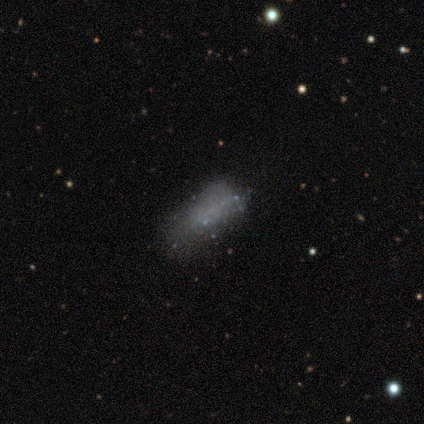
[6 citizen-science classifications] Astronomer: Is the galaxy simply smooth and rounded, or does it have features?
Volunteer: smooth — 50% (runner-up: featured or disk, 33%).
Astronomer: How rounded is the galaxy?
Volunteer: in between — 67%.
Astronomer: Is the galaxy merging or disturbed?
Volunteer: none — 60% (runner-up: major disturbance, 40%).